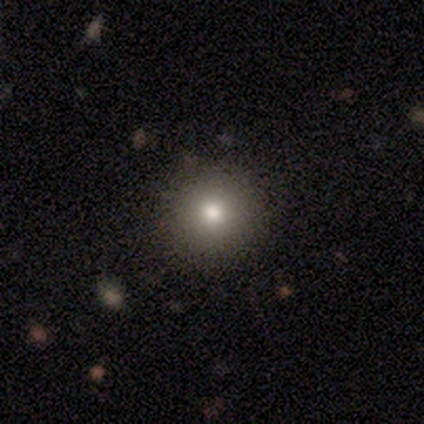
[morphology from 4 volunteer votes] This is possibly a smooth galaxy (50%, tied with star or artifact). How rounded: possibly round (50%, tied with in between). Merging: possibly none (50%, tied with minor disturbance).